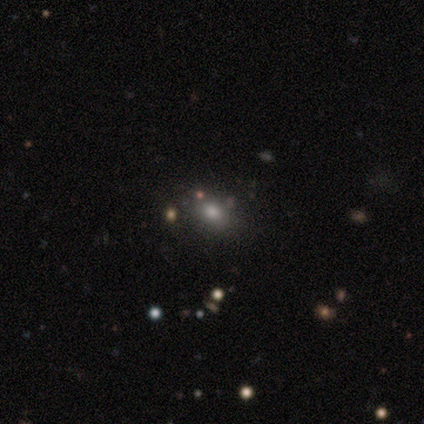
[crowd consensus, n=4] A smooth galaxy with no disk features (50%) that is in between round and cigar-shaped (100%).

Vote fractions:
- Smooth or featured? smooth: 50% / featured or disk: 25% / star or artifact: 25%
- How rounded? in between: 100% / round: 0% / cigar-shaped: 0%
- Merging? none: 67% / merger: 33% / minor disturbance: 0% / major disturbance: 0%